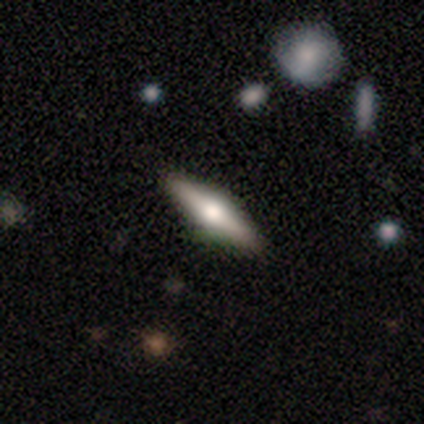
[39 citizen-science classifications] Q: Smooth or featured?
A: featured or disk (62%); runner-up: smooth (36%)
Q: Edge-on disk?
A: yes (100%)
Q: Edge-on bulge?
A: rounded (92%); runner-up: none (8%)
Q: Merging?
A: none (61%); runner-up: minor disturbance (8%)